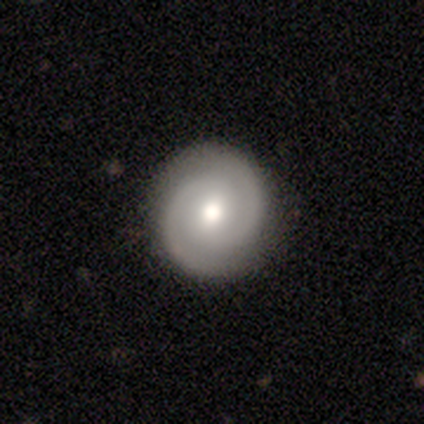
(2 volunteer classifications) Smooth or featured? 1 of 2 (50%, tied with featured or disk) said smooth. How rounded? 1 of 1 (100%) said round. Merging? 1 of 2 (50%, tied with minor disturbance) said none.